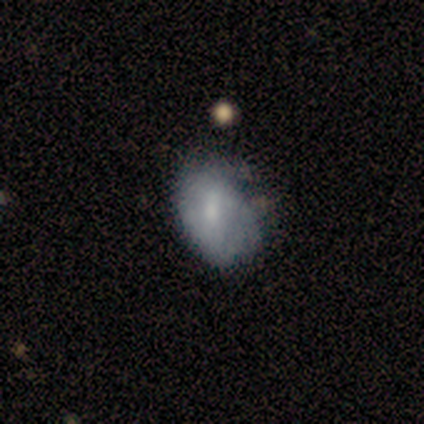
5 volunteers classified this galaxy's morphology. smooth-or-featured: smooth: 60% | featured or disk: 40% | star or artifact: 0%
  how-rounded: in between: 100% | round: 0% | cigar-shaped: 0%
  merging: none: 40% (tied) | minor disturbance: 40% (tied) | merger: 20% | major disturbance: 0%